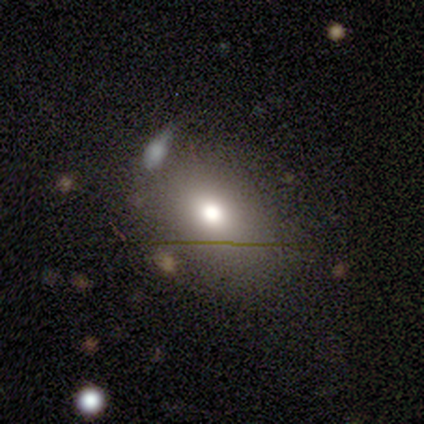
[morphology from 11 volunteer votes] smooth 64%, star or artifact 27%, featured or disk 9%. Down the decision tree: how rounded — in between (57%); merging — none (50%).